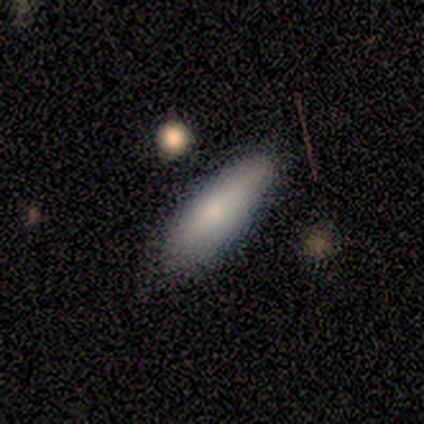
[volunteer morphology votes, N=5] smooth_or_featured: smooth (p=1.00)
how_rounded: in between (p=0.60) [alt: cigar-shaped p=0.40]
merging: none (p=0.80) [alt: minor disturbance p=0.20]